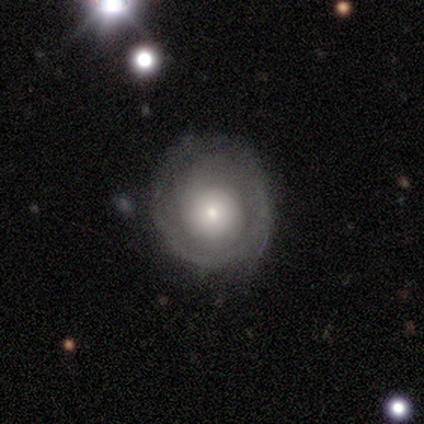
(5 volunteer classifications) Smooth or featured? featured or disk (60%)
Edge-on disk? no (100%)
Bar? no (67%)
Spiral arms? yes (67%)
Spiral winding? tight (50%, tied with medium)
Spiral arm count? 1 (50%, tied with can't tell)
Bulge size? moderate (67%)
Merging? none (100%)